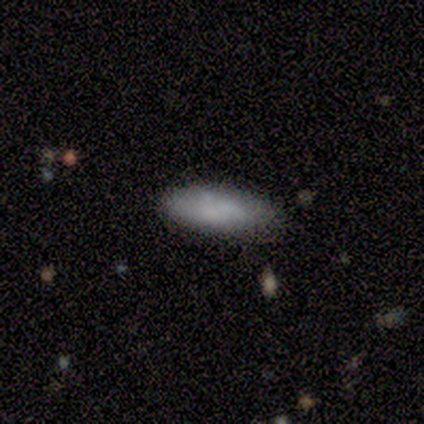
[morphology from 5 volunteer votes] Q: Smooth or featured?
A: smooth (80%); runner-up: featured or disk (20%)
Q: How rounded?
A: in between (75%); runner-up: cigar-shaped (25%)
Q: Merging?
A: none (60%); runner-up: minor disturbance (40%)